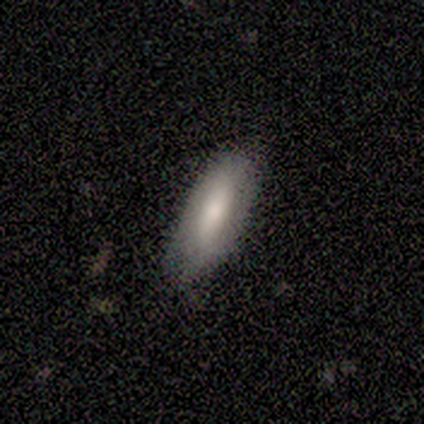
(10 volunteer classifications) smooth-or-featured: smooth: 80% | featured or disk: 20% | star or artifact: 0%
  how-rounded: in between: 88% | cigar-shaped: 12% | round: 0%
  merging: none: 50% | minor disturbance: 40% | major disturbance: 10% | merger: 0%